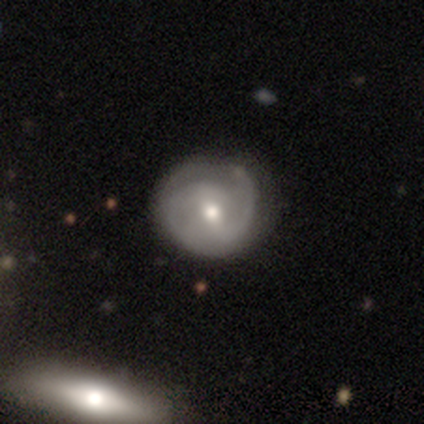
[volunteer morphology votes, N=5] Q: Smooth or featured?
A: featured or disk (80%); runner-up: smooth (20%)
Q: Edge-on disk?
A: no (100%)
Q: Bar?
A: strong (50%); tied with: no (50%)
Q: Spiral arms?
A: yes (75%); runner-up: no (25%)
Q: Spiral winding?
A: tight (67%); runner-up: medium (33%)
Q: Spiral arm count?
A: 2 (67%); runner-up: can't tell (33%)
Q: Bulge size?
A: moderate (100%)
Q: Merging?
A: none (60%); runner-up: minor disturbance (20%)